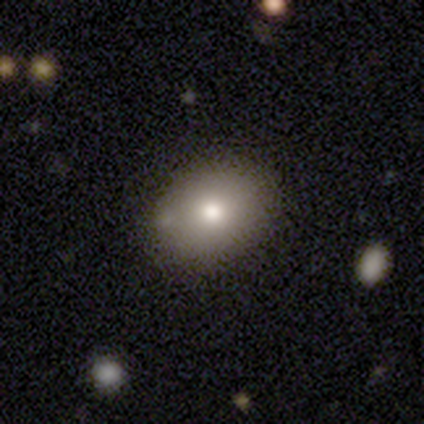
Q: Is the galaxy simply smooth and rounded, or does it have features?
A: smooth — 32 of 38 (84%).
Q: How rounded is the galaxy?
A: in between — 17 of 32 (53%).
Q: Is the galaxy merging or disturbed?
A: none — 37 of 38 (97%).